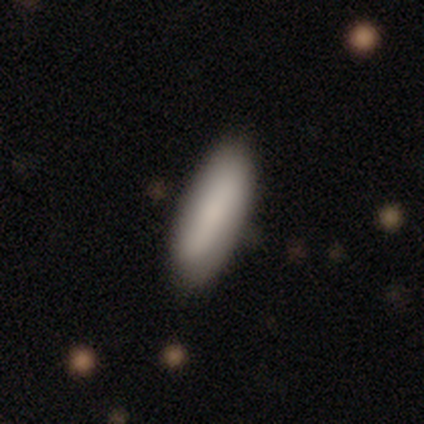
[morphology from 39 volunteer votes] This appears to be a smooth galaxy with no disk features (87%) that is in between round and cigar-shaped (68%). Merging: none (92%).